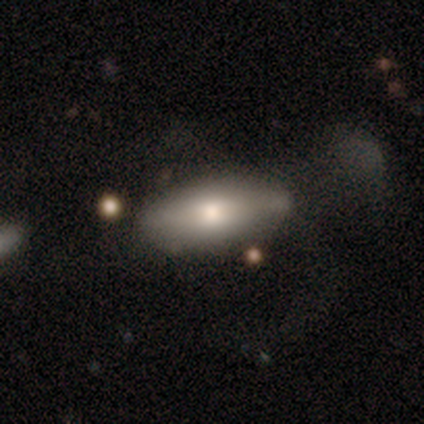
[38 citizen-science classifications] smooth_or_featured: smooth (p=0.68) [alt: featured or disk p=0.26]
how_rounded: in between (p=0.81) [alt: cigar-shaped p=0.15]
merging: none (p=0.44) [alt: minor disturbance p=0.25]